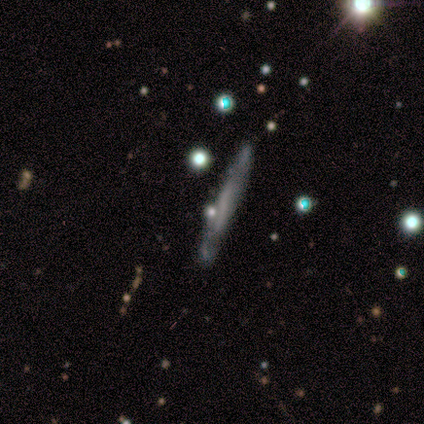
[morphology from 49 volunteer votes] Overall: featured or disk (59%; smooth 37%). Edge-on disk: yes (86%). Edge-on bulge: none (84%). Merging: none (70%).